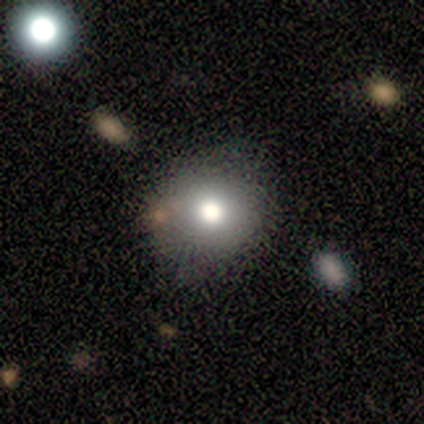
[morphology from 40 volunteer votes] A smooth galaxy with no disk features (85%) that is round (91%).

Vote fractions:
- Smooth or featured? smooth: 85% / featured or disk: 8% / star or artifact: 8%
- How rounded? round: 91% / in between: 9% / cigar-shaped: 0%
- Merging? none: 57% / minor disturbance: 8% / merger: 8% / major disturbance: 0%